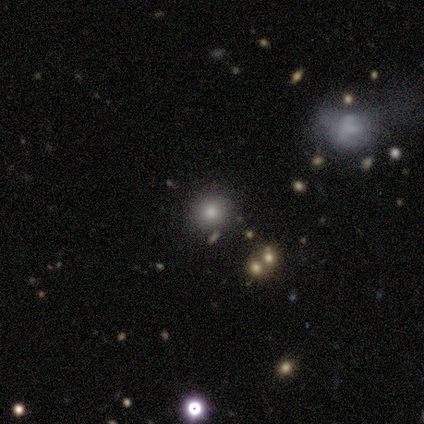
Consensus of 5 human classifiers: Smooth or featured: smooth — 60% (featured or disk — 20%)
How rounded: round — 100%
Merging: minor disturbance — 75% (none — 25%)